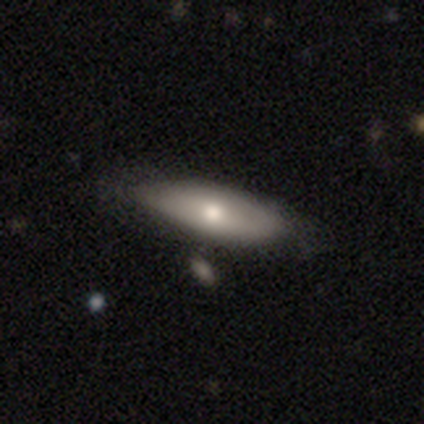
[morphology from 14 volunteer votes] A smooth galaxy with no disk features (79%) that is in between round and cigar-shaped (82%).

Vote fractions:
- Smooth or featured? smooth: 79% / featured or disk: 21% / star or artifact: 0%
- How rounded? in between: 82% / cigar-shaped: 18% / round: 0%
- Merging? none: 64% / minor disturbance: 36% / major disturbance: 0% / merger: 0%